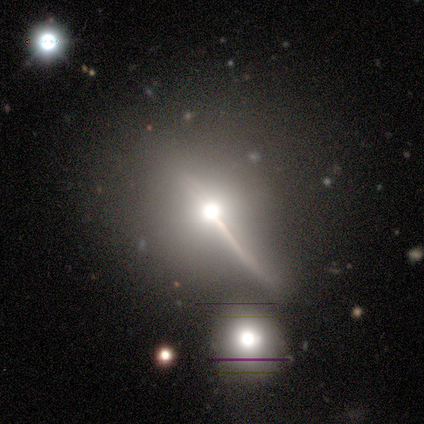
Q: Smooth or featured?
A: featured or disk (73%); runner-up: star or artifact (15%)
Q: Edge-on disk?
A: yes (78%); runner-up: no (22%)
Q: Edge-on bulge?
A: rounded (94%); runner-up: none (6%)
Q: Merging?
A: none (53%); runner-up: major disturbance (23%)